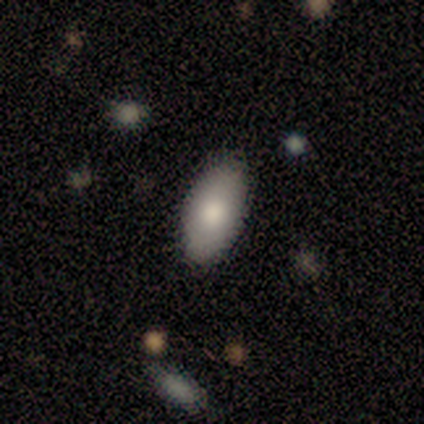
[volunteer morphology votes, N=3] smooth-or-featured: smooth: 100% | featured or disk: 0% | star or artifact: 0%
  how-rounded: in between: 100% | round: 0% | cigar-shaped: 0%
  merging: none: 67% | minor disturbance: 33% | major disturbance: 0% | merger: 0%